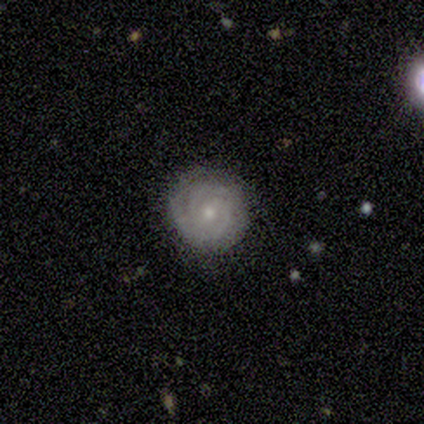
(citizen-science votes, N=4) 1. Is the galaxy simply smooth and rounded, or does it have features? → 100% featured or disk, 0% smooth, 0% star or artifact.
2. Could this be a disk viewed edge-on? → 100% no, 0% yes.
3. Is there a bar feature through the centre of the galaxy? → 50% weak (tied), 50% no (tied), 0% strong.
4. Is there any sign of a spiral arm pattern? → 100% yes, 0% no.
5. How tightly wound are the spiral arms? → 100% tight, 0% medium, 0% loose.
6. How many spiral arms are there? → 50% 2, 25% 3, 25% 4, 0% 1, 0% more than 4, 0% can't tell.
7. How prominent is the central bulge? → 50% small, 25% moderate, 25% none, 0% dominant, 0% large.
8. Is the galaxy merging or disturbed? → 75% none, 25% minor disturbance, 0% major disturbance, 0% merger.